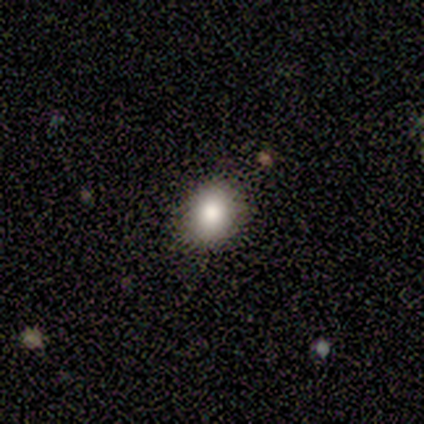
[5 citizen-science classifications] A smooth galaxy with no disk features (80%) that is in between round and cigar-shaped (75%).

Vote fractions:
- Smooth or featured? smooth: 80% / star or artifact: 20% / featured or disk: 0%
- How rounded? in between: 75% / round: 25% / cigar-shaped: 0%
- Merging? none: 100% / minor disturbance: 0% / major disturbance: 0% / merger: 0%